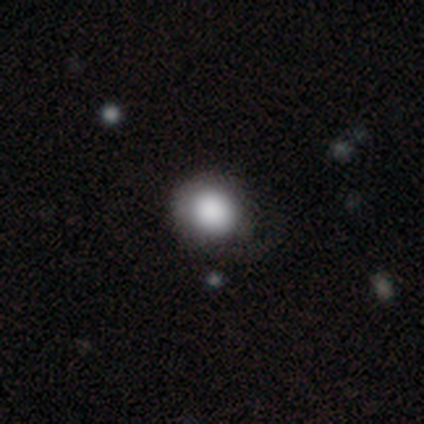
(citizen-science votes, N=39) A smooth galaxy with no disk features (87%) that is round (74%).

Vote fractions:
- Smooth or featured? smooth: 87% / featured or disk: 8% / star or artifact: 5%
- How rounded? round: 74% / in between: 26% / cigar-shaped: 0%
- Merging? none: 41% / minor disturbance: 30% / major disturbance: 11% / merger: 3%